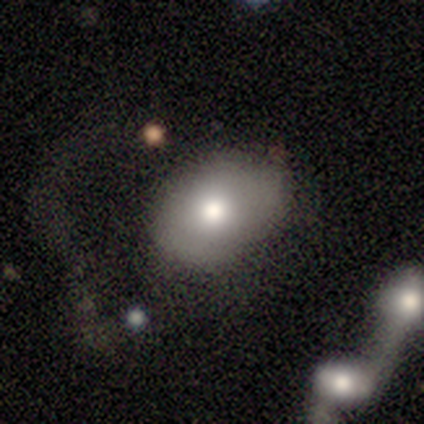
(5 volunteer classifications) This is clearly a smooth galaxy (80%). How rounded: likely in between (75%). Merging: likely none (75%).